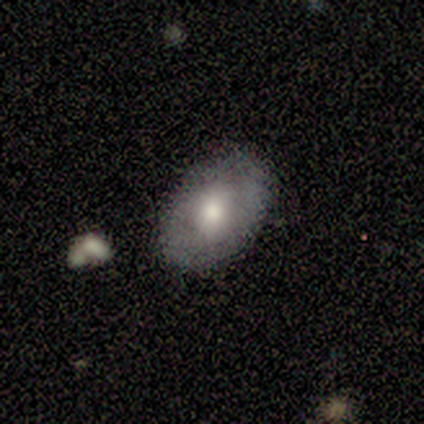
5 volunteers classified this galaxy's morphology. type=featured or disk (60%); edge-on=no (100%); bar=no (100%); spiral arms=no (100%); bulge=moderate (100%); merging=none (100%).